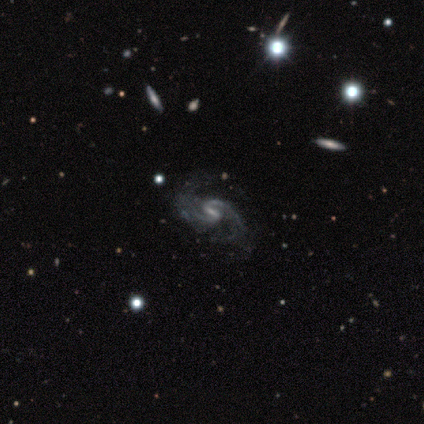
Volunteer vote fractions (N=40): This appears to be a featured or disk galaxy (92%) with a weak bar (51%), 2 (94%) medium (56%) spiral arms (97%) and a small central bulge (43%). Merging: none (51%).